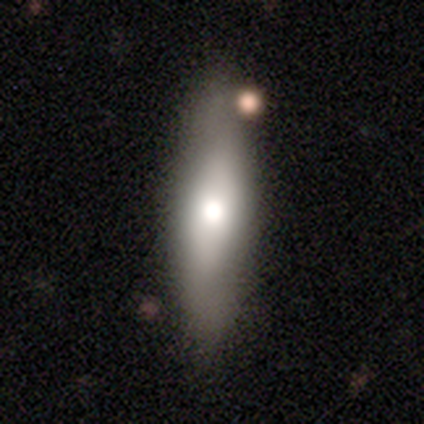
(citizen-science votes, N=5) Overall: smooth (80%). How rounded: in between (50%, tied with cigar-shaped). Merging: none (100%).